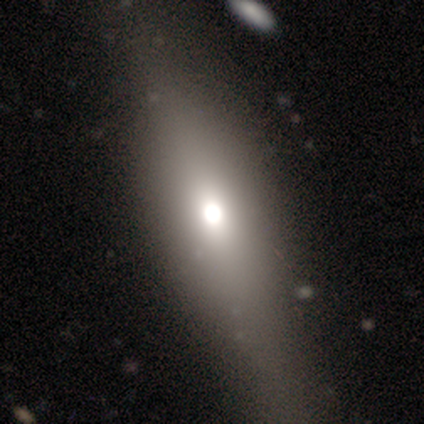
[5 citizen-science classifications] This appears to be a featured or disk galaxy (60%) viewed edge-on (67%) with a rounded central bulge (100%). Merging: none (60%).